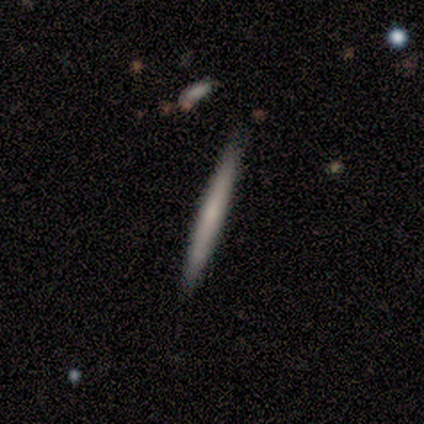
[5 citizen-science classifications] smooth_or_featured: smooth (p=0.80) [alt: featured or disk p=0.20]
how_rounded: cigar-shaped (p=1.00)
merging: none (p=0.80) [alt: merger p=0.20]